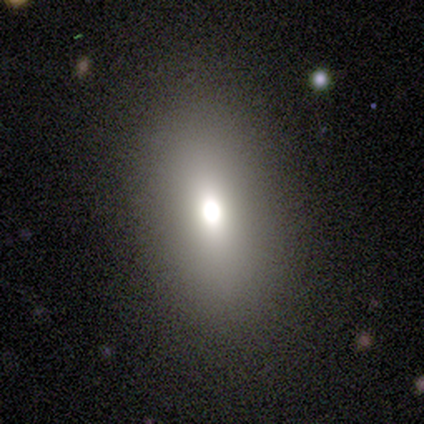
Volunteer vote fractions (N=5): This appears to be a smooth galaxy with no disk features (100%) that is in between round and cigar-shaped (100%). Merging: none (100%).